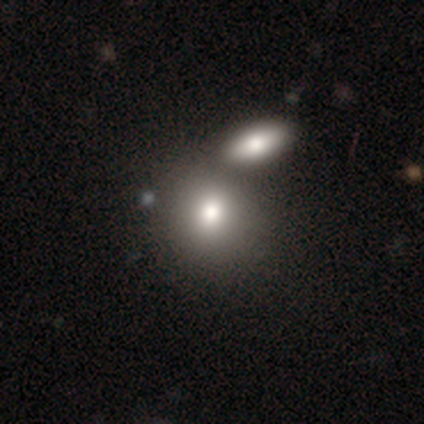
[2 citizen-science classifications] Smooth or featured: smooth — 100%
How rounded: round — 50% (tied with in between — 50%)
Merging: none — 50% (tied with merger — 50%)